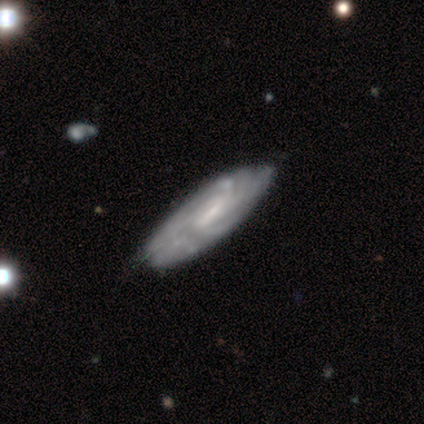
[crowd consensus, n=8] Overall: featured or disk (88%). Edge-on disk: no (100%). Bar: weak (71%). Spiral arms: yes (100%). Spiral arm count: more than 4 (43%, tied with can't tell). Spiral winding: tight (100%). Bulge size: small (57%; moderate 43%). Merging: none (88%).